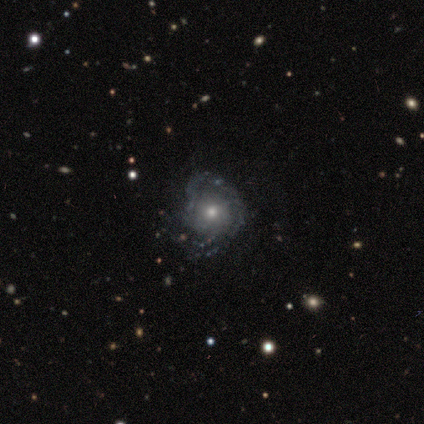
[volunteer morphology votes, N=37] Volunteers were most divided on "bulge size": moderate: 58%, small: 35%, large: 4%, none: 4%, dominant: 0%. More confident: edge-on disk — no (100%); spiral arms — yes (96%); bar — no (81%); smooth or featured — featured or disk (70%); spiral arm count — can't tell (68%); merging — none (65%); spiral winding — tight (64%).